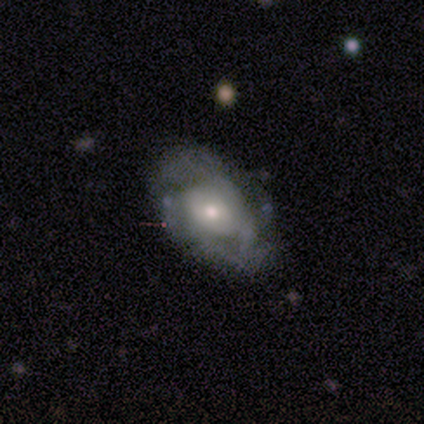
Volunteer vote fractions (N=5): smooth_or_featured: featured or disk (p=0.60) [alt: smooth p=0.20]
disk_edge_on: no (p=1.00)
bar: no (p=1.00)
has_spiral_arms: yes (p=0.67) [alt: no p=0.33]
spiral_winding: tight (p=0.50) [tied with: medium p=0.50]
spiral_arm_count: more than 4 (p=0.50) [tied with: can't tell p=0.50]
bulge_size: large (p=0.33) [tied with: moderate p=0.33, small p=0.33]
merging: none (p=0.50) [alt: major disturbance p=0.25]